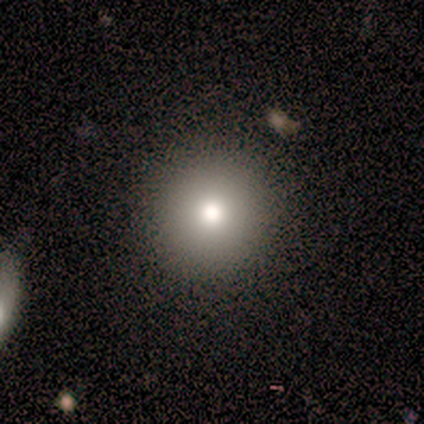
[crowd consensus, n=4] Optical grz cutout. It shows a smooth galaxy with no disk features (75%) that is round (100%). Merging: none (75%).